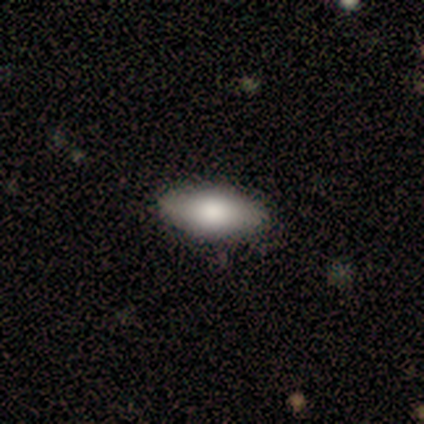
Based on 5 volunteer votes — A smooth galaxy with no disk features (80%) that is in between round and cigar-shaped (100%).

Vote fractions:
- Smooth or featured? smooth: 80% / featured or disk: 20% / star or artifact: 0%
- How rounded? in between: 100% / round: 0% / cigar-shaped: 0%
- Merging? none: 80% / minor disturbance: 20% / major disturbance: 0% / merger: 0%